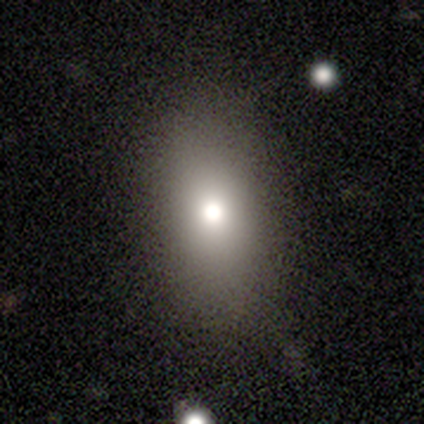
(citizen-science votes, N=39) Smooth or featured? 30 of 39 (77%) said smooth. How rounded? 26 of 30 (87%) said in between. Merging? 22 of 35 (63%) said none.